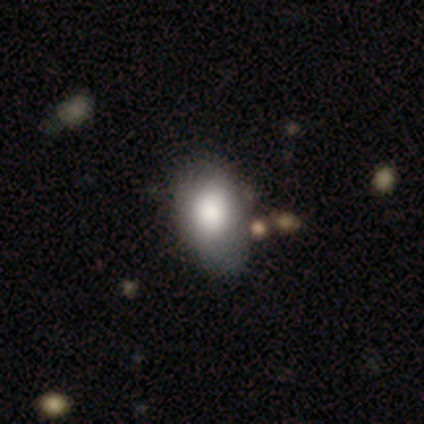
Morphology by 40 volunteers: A smooth galaxy with no disk features (92%) that is in between round and cigar-shaped (97%). Merging: none (34%).